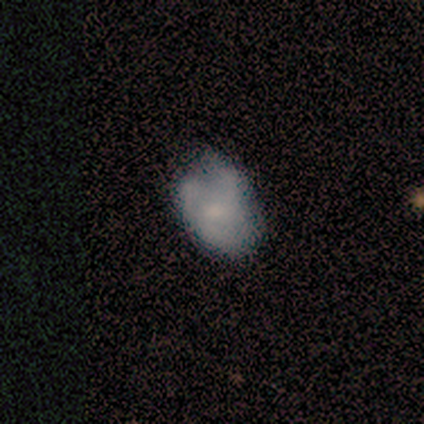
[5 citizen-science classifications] Smooth or featured? 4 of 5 (80%) said featured or disk. Edge-on disk? 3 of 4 (75%) said no. Bar? 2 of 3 (67%) said no. Spiral arms? 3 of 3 (100%) said yes. Spiral winding? 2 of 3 (67%) said tight. Spiral arm count? 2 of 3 (67%) said can't tell. Bulge size? 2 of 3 (67%) said moderate. Merging? 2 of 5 (40%, tied with minor disturbance) said none.